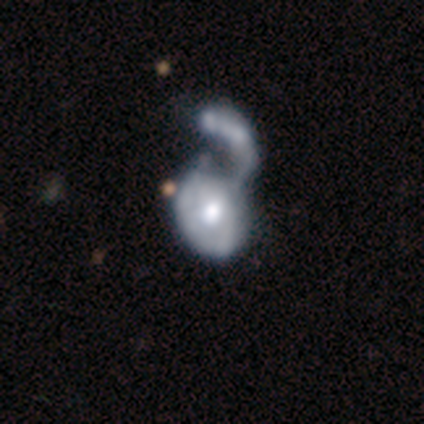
Volunteers were most divided on "spiral winding": tight: 67%, medium: 33%, loose: 0%. More confident: edge-on disk — no (100%); bar — no (100%); merging — merger (100%); smooth or featured — featured or disk (80%); spiral arms — yes (75%); bulge size — moderate (75%); spiral arm count — can't tell (67%).